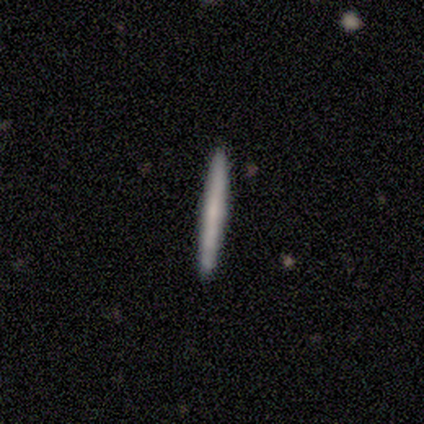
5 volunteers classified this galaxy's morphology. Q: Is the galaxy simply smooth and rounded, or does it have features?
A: smooth — 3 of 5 (60%).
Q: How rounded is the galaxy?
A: cigar-shaped — 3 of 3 (100%).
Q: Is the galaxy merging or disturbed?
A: none — 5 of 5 (100%).